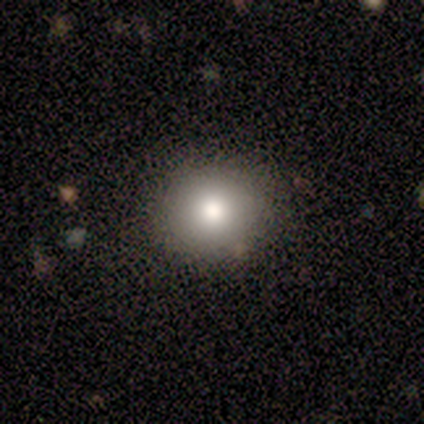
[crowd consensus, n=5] This appears to be a smooth galaxy with no disk features (60%) that is round (100%). Merging: none (100%).